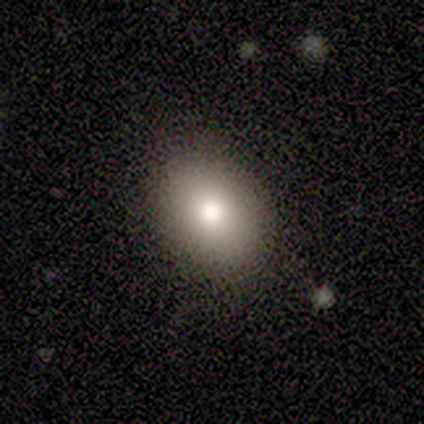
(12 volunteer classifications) smooth_or_featured: smooth (p=0.83) [alt: star or artifact p=0.17]
how_rounded: in between (p=0.60) [alt: round p=0.40]
merging: none (p=0.90) [alt: minor disturbance p=0.10]